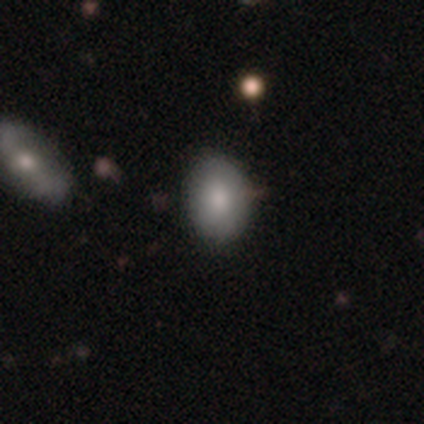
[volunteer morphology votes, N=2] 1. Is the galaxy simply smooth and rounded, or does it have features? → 50% smooth (tied), 50% featured or disk (tied), 0% star or artifact.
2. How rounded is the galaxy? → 100% in between, 0% round, 0% cigar-shaped.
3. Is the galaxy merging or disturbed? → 50% none (tied), 50% major disturbance (tied), 0% minor disturbance, 0% merger.